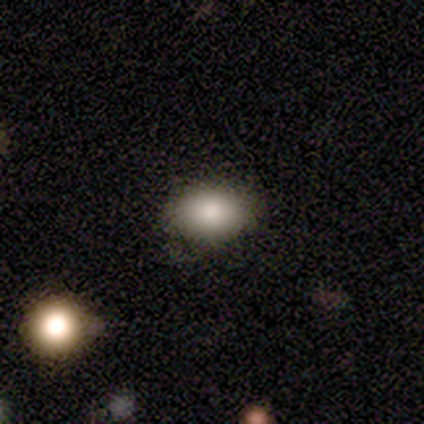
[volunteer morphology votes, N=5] A smooth galaxy with no disk features (80%) that is round (50%, tied with in between).

Vote fractions:
- Smooth or featured? smooth: 80% / featured or disk: 20% / star or artifact: 0%
- How rounded? round: 50% (tied) / in between: 50% (tied) / cigar-shaped: 0%
- Merging? none: 80% / minor disturbance: 20% / major disturbance: 0% / merger: 0%